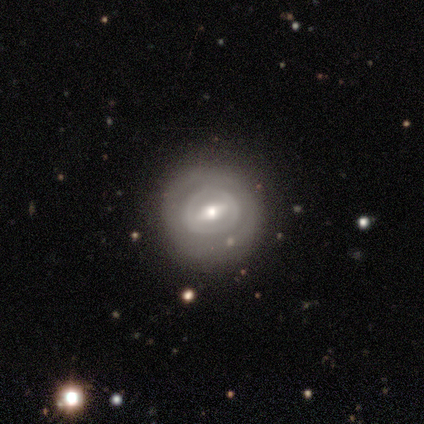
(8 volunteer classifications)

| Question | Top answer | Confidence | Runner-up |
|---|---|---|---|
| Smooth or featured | featured or disk | 62% | smooth (38%) |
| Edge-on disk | no | 100% | — |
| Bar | strong | 40% | tied: weak (40%) |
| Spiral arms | no | 60% | yes (40%) |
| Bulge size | small | 60% | moderate (40%) |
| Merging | none | 88% | minor disturbance (12%) |